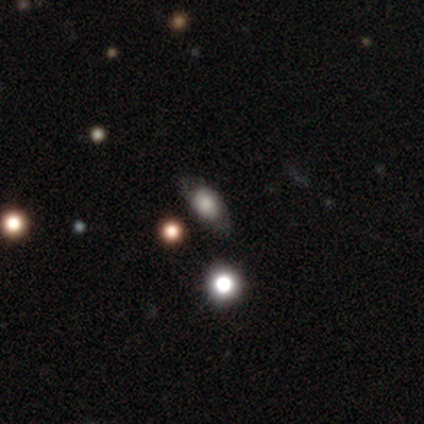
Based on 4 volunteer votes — This appears to be a smooth galaxy with no disk features (75%) that is in between round and cigar-shaped (100%). Merging: none (67%).